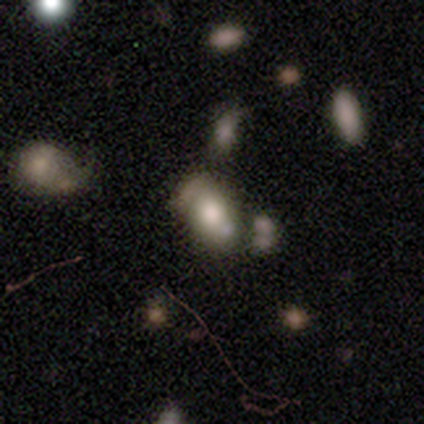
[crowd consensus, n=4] Smooth or featured? 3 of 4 (75%) said smooth. How rounded? 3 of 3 (100%) said in between. Merging? 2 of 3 (67%) said major disturbance.